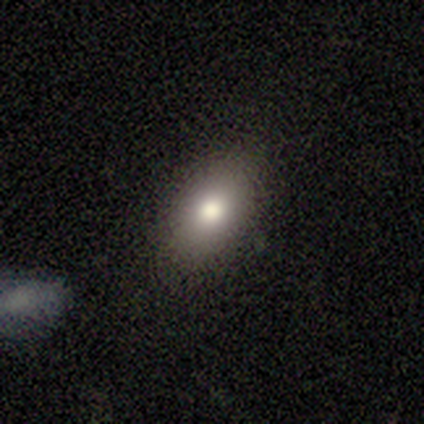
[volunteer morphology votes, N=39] Smooth or featured?
  - smooth: 82% *
  - featured or disk: 10%
  - star or artifact: 8%
How rounded?
  - in between: 84% *
  - cigar-shaped: 9%
  - round: 6%
Merging?
  - none: 86% *
  - minor disturbance: 11%
  - major disturbance: 3%
  - merger: 0%